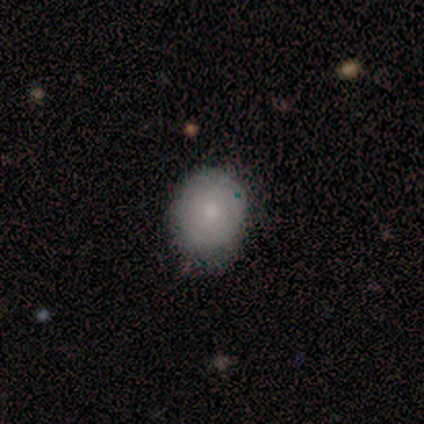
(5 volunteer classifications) This is likely a smooth galaxy (60%). How rounded: likely in between (67%). Merging: likely none (60%).